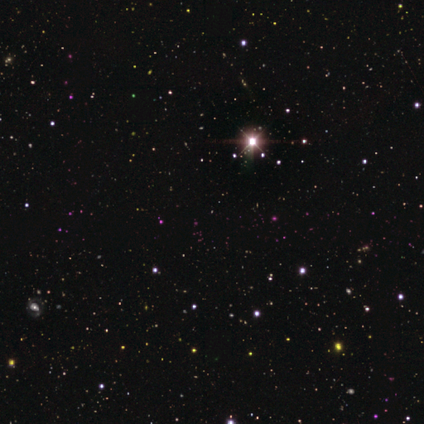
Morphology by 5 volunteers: smooth_or_featured: star or artifact (p=1.00)